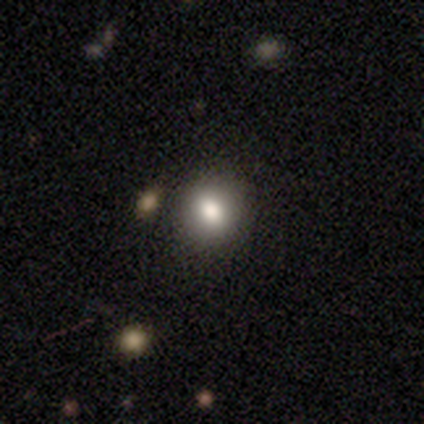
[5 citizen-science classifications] Smooth or featured? smooth (80%)
How rounded? round (100%)
Merging? none (100%)